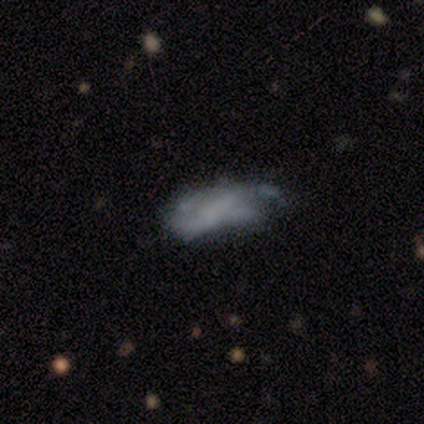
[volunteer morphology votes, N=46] A featured or disk galaxy (48%) with no bar (71%), no spiral arms (57%) and no central bulge (90%).

Vote fractions:
- Smooth or featured? featured or disk: 48% / smooth: 46% / star or artifact: 7%
- Edge-on disk? no: 95% / yes: 5%
- Bar? no: 71% / weak: 24% / strong: 5%
- Spiral arms? no: 57% / yes: 43%
- Bulge size? none: 90% / small: 10% / dominant: 0% / large: 0% / moderate: 0%
- Merging? none: 44% / minor disturbance: 30% / major disturbance: 23% / merger: 2%